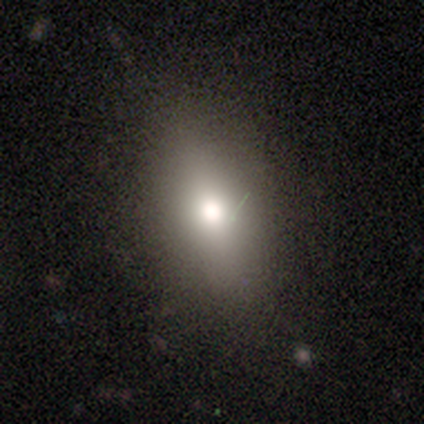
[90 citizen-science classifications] This appears to be a smooth galaxy with no disk features (61%) that is in between round and cigar-shaped (82%). Merging: none (82%).